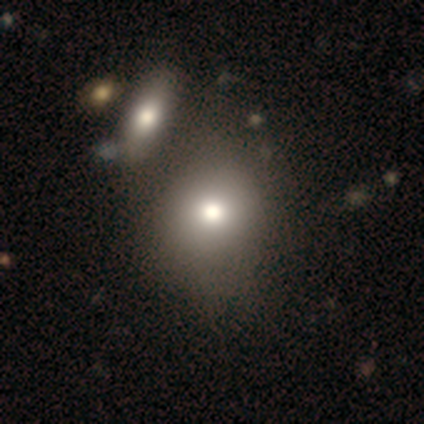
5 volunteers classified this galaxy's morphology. smooth_or_featured: smooth (p=0.80) [alt: featured or disk p=0.20]
how_rounded: round (p=1.00)
merging: minor disturbance (p=0.60) [alt: none p=0.40]